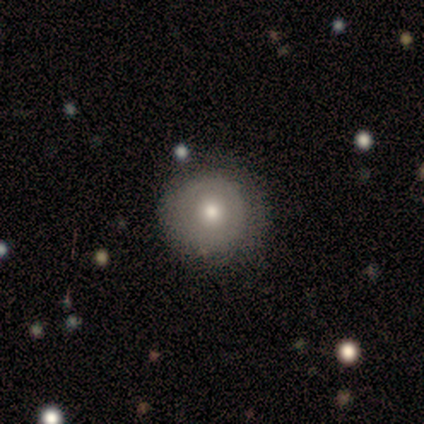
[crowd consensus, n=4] Smooth or featured: smooth — 75% (featured or disk — 25%)
How rounded: round — 67% (in between — 33%)
Merging: none — 75% (minor disturbance — 25%)